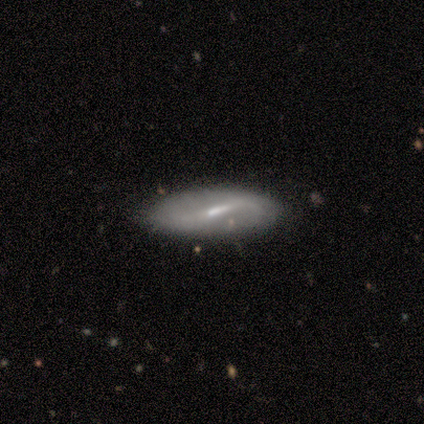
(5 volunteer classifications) Smooth or featured? 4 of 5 (80%) said featured or disk. Edge-on disk? 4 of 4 (100%) said no. Bar? 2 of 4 (50%, tied with weak) said strong. Spiral arms? 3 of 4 (75%) said no. Bulge size? 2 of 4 (50%) said moderate. Merging? 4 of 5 (80%) said none.